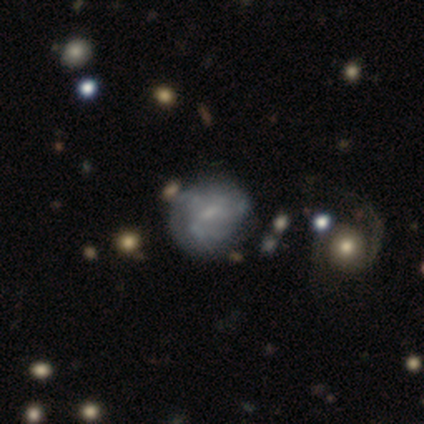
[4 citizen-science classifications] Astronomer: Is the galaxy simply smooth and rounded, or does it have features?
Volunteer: featured or disk — 100%.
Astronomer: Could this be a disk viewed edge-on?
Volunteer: no — 100%.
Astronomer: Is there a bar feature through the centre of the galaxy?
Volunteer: weak — 100%.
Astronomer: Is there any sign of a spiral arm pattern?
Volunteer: yes — 75%.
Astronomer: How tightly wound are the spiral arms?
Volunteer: tight — 33%, tied with medium and loose at 33%.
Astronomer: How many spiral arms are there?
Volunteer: can't tell — 100%.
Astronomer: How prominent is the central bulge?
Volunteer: small — 50%.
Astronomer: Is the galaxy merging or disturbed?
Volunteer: none — 50%.